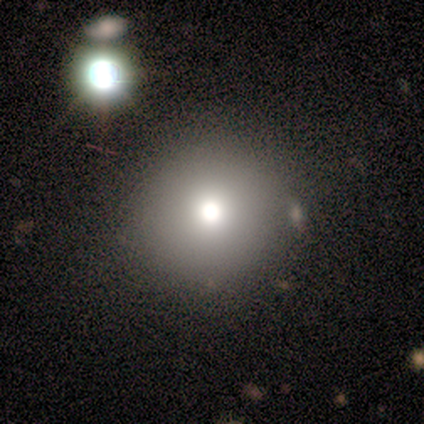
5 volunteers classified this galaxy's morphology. Volunteers were most divided on "merging" (3-way tie): none: 33%, major disturbance: 33%, merger: 33%, minor disturbance: 0%. More confident: how rounded — round (67%); smooth or featured — smooth (60%).